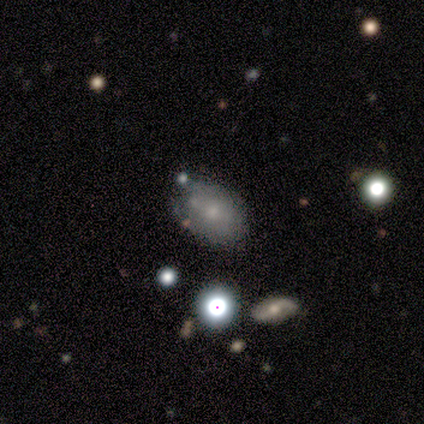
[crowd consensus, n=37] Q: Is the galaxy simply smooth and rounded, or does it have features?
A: smooth — 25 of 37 (68%).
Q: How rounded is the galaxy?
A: in between — 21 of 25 (84%).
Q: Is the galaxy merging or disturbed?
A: none — 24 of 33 (73%).